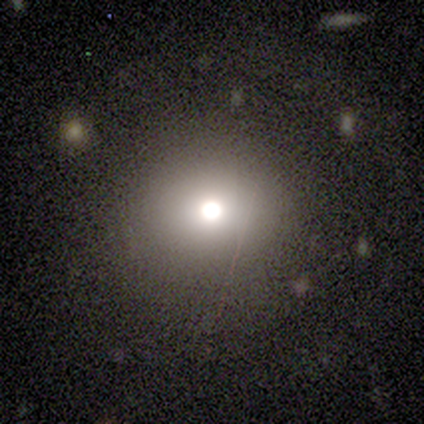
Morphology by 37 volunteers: Q: Smooth or featured?
A: smooth (84%); runner-up: featured or disk (11%)
Q: How rounded?
A: round (77%); runner-up: in between (23%)
Q: Merging?
A: none (86%); runner-up: major disturbance (11%)